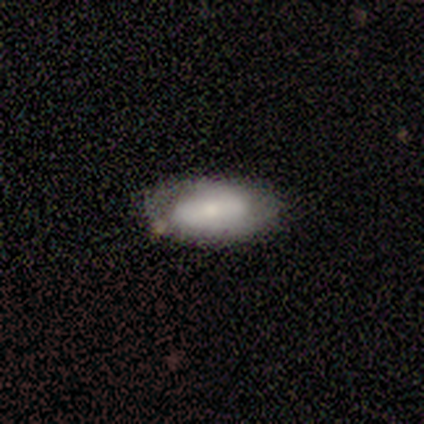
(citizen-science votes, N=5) This appears to be a smooth galaxy with no disk features (40%, tied with featured or disk) that is in between round and cigar-shaped (100%). Merging: none (75%).